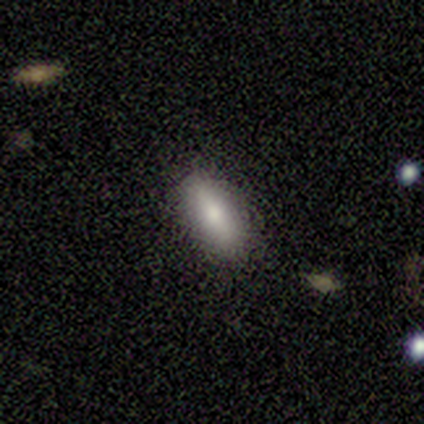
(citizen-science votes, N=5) smooth_or_featured: smooth (p=0.80) [alt: featured or disk p=0.20]
how_rounded: in between (p=1.00)
merging: none (p=0.60) [alt: minor disturbance p=0.20]